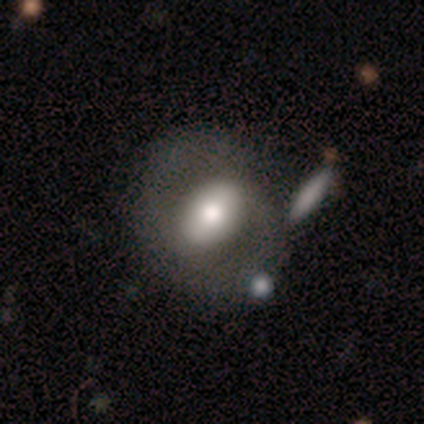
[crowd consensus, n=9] Smooth or featured? 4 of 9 (44%, tied with featured or disk) said smooth. How rounded? 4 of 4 (100%) said in between. Merging? 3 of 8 (38%) said none.